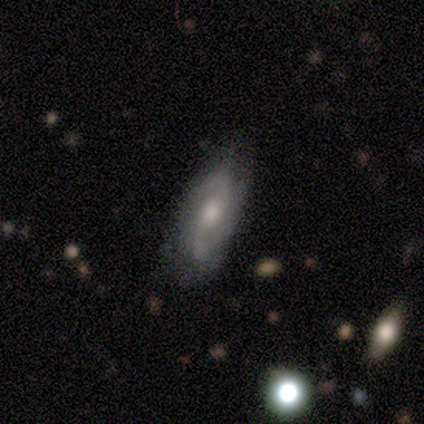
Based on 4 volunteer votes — smooth_or_featured: featured or disk (p=1.00)
disk_edge_on: no (p=1.00)
bar: no (p=1.00)
has_spiral_arms: yes (p=1.00)
spiral_winding: tight (p=0.50) [alt: medium p=0.25]
spiral_arm_count: 2 (p=0.50) [alt: 1 p=0.25]
bulge_size: moderate (p=0.50) [tied with: small p=0.50]
merging: none (p=0.50) [alt: minor disturbance p=0.25]